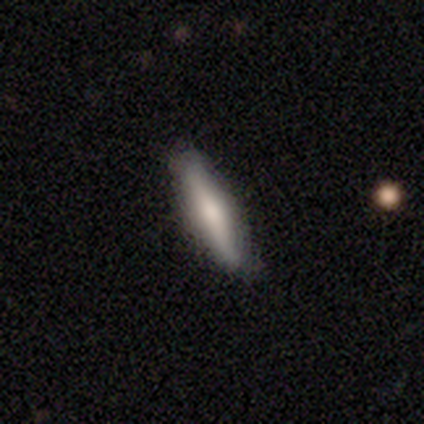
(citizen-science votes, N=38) Smooth or featured? smooth (66%)
How rounded? cigar-shaped (84%)
Merging? none (62%)